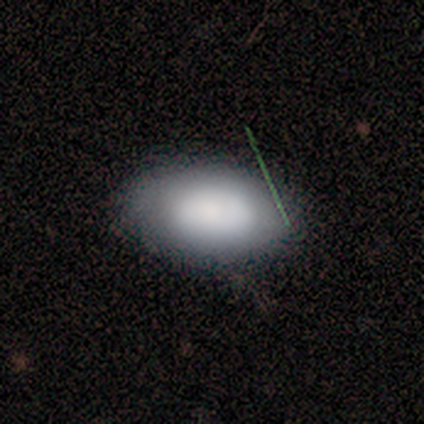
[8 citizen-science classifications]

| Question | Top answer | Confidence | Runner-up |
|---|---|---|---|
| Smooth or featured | smooth | 50% | featured or disk (38%) |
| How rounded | in between | 75% | round (25%) |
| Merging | none | 100% | — |